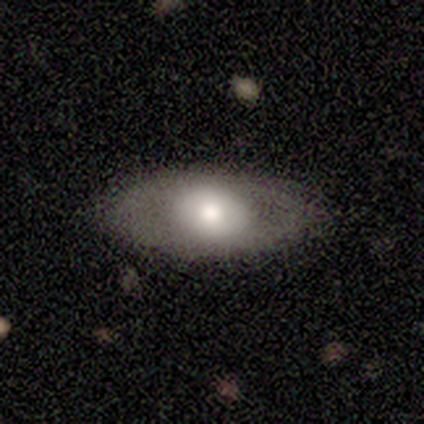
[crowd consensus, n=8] Volunteers were most divided on "bulge size" (2-way tie): large: 50%, moderate: 50%, dominant: 0%, small: 0%, none: 0%. More confident: bar — no (100%); spiral arms — no (100%); merging — none (88%); smooth or featured — featured or disk (75%); edge-on disk — no (67%).